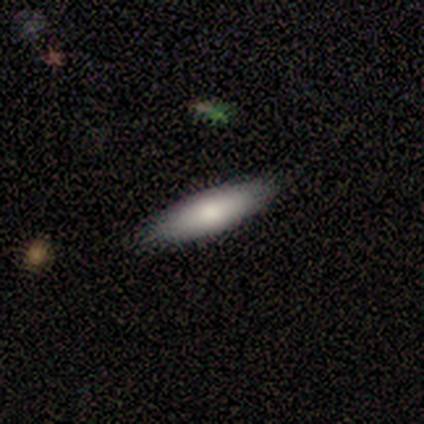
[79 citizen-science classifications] smooth-or-featured: smooth: 81% | featured or disk: 15% | star or artifact: 4%
  how-rounded: cigar-shaped: 50% | in between: 48% | round: 2%
  merging: none: 59% | minor disturbance: 8% | major disturbance: 0% | merger: 0%